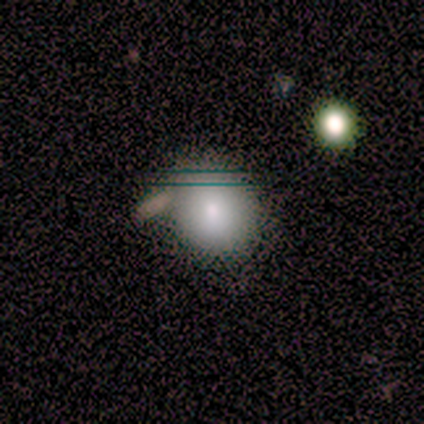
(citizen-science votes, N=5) Smooth or featured?
  - smooth: 100% *
  - featured or disk: 0%
  - star or artifact: 0%
How rounded?
  - round: 80% *
  - in between: 20%
  - cigar-shaped: 0%
Merging?
  - none: 60% *
  - minor disturbance: 20%
  - merger: 20%
  - major disturbance: 0%